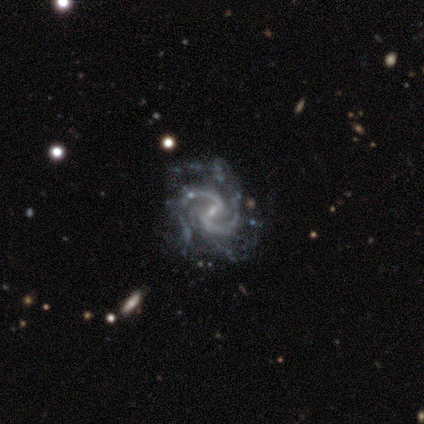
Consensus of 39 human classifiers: Smooth or featured? featured or disk (100%)
Edge-on disk? no (100%)
Bar? weak (69%)
Spiral arms? yes (100%)
Spiral winding? medium (64%)
Spiral arm count? 2 (85%)
Bulge size? small (72%)
Merging? none (67%)